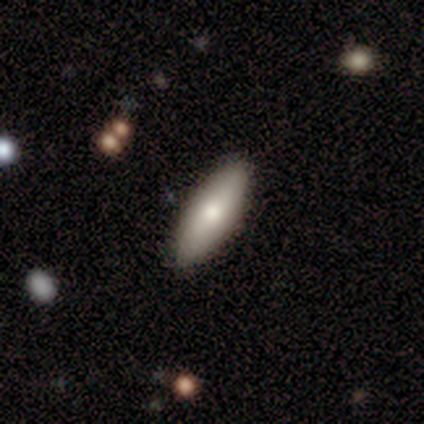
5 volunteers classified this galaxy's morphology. This is clearly a smooth galaxy (80%). How rounded: likely cigar-shaped (75%). Merging: likely none (60%).